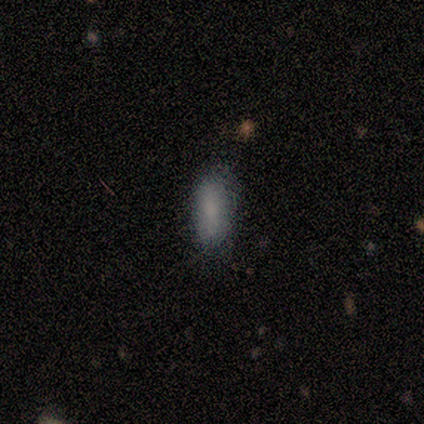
Smooth or featured? smooth (100%)
How rounded? in between (100%)
Merging? none (60%)